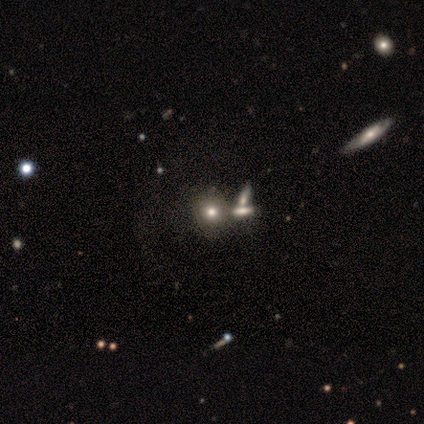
This appears to be a smooth galaxy with no disk features (57%) that is round (75%). Merging: none (50%).